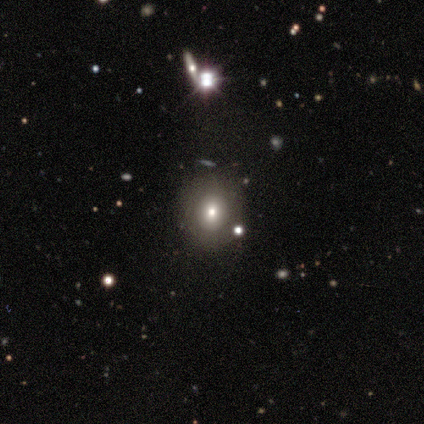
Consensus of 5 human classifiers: Overall: smooth (80%). How rounded: round (100%). Merging: none (100%).